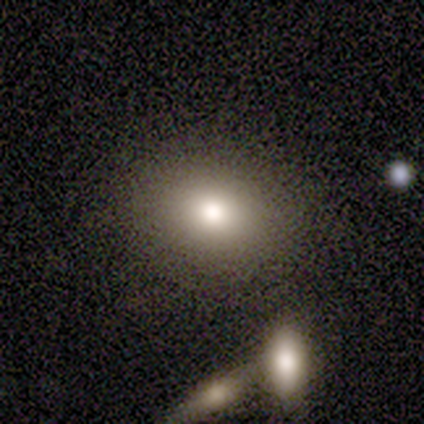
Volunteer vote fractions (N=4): Smooth or featured? 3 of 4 (75%) said smooth. How rounded? 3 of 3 (100%) said in between. Merging? 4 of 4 (100%) said none.